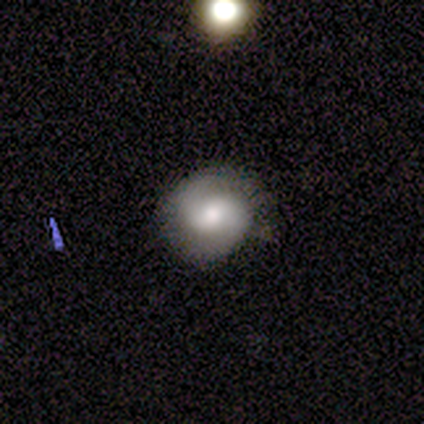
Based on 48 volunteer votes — Smooth or featured: featured or disk — 77% (smooth — 15%)
Edge-on disk: no — 97% (yes — 3%)
Bar: no — 47% (weak — 44%)
Spiral arms: yes — 81% (no — 19%)
Spiral winding: medium — 48% (tight — 34%)
Spiral arm count: 2 — 93% (1 — 3%)
Bulge size: moderate — 61% (small — 22%)
Merging: none — 77% (minor disturbance — 20%)